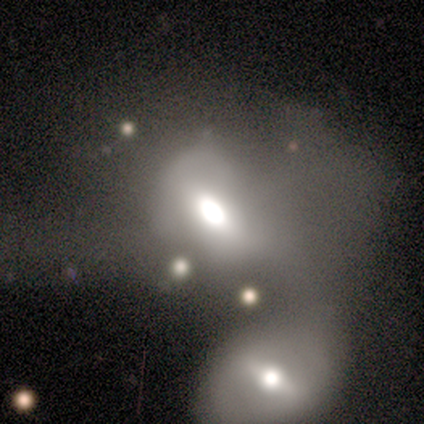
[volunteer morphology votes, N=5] Q: Smooth or featured?
A: smooth (40%); tied with: featured or disk (40%)
Q: How rounded?
A: in between (100%)
Q: Merging?
A: merger (75%); runner-up: none (25%)